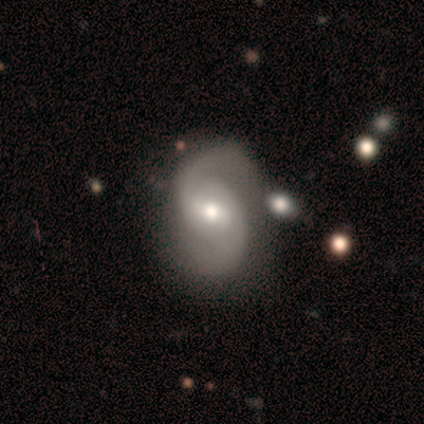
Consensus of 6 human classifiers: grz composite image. It shows a featured or disk galaxy (83%) with a weak bar (80%), 2 (100%) medium (40%, tied with loose) spiral arms (100%) and a small central bulge (40%). Merging: none (80%).